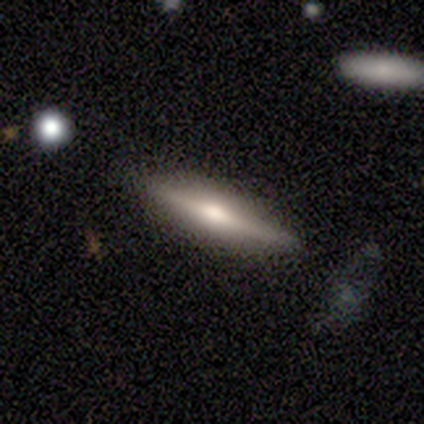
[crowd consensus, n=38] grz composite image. It shows a featured or disk galaxy (76%) viewed edge-on (93%) with a rounded central bulge (74%). Merging: none (91%).